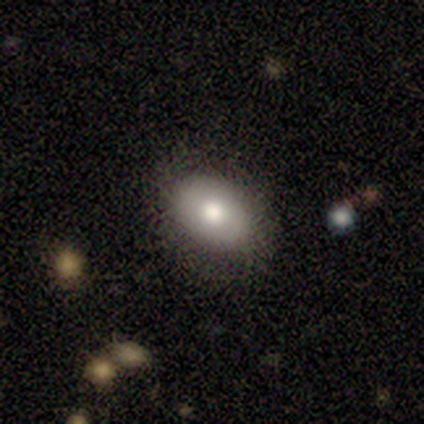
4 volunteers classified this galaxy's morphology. Smooth or featured? 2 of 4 (50%) said featured or disk. Edge-on disk? 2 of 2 (100%) said no. Bar? 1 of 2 (50%, tied with no) said strong. Spiral arms? 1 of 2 (50%, tied with no) said yes. Spiral winding? 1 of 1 (100%) said medium. Spiral arm count? 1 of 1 (100%) said 3. Bulge size? 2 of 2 (100%) said moderate. Merging? 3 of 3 (100%) said none.